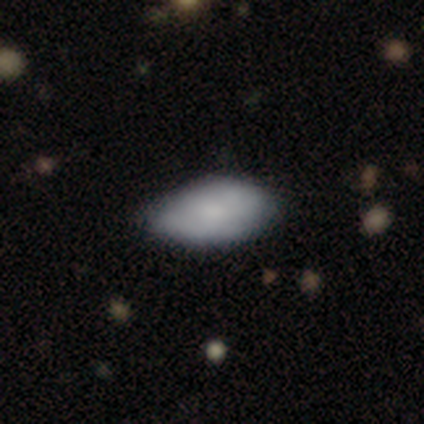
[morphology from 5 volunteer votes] smooth_or_featured: smooth (p=0.80) [alt: featured or disk p=0.20]
how_rounded: in between (p=1.00)
merging: none (p=0.60) [alt: major disturbance p=0.40]